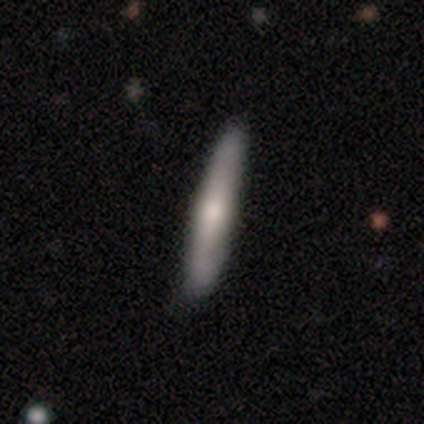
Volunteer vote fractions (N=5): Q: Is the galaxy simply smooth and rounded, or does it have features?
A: featured or disk — 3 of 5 (60%).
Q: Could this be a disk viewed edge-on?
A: yes — 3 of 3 (100%).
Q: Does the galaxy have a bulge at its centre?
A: rounded — 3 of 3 (100%).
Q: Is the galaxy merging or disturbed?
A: none — 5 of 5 (100%).